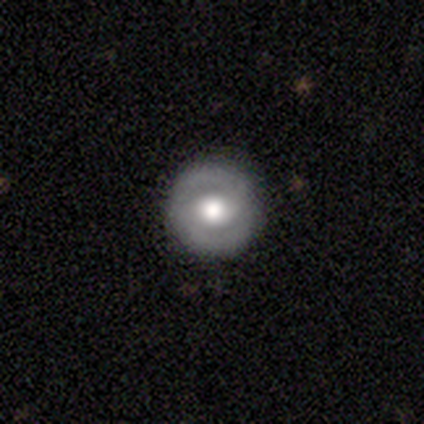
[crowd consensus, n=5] A featured or disk galaxy (80%) with a weak bar (67%), 2 (100%) tight (100%) spiral arms (67%) and a moderate central bulge (100%).

Vote fractions:
- Smooth or featured? featured or disk: 80% / smooth: 20% / star or artifact: 0%
- Edge-on disk? no: 75% / yes: 25%
- Bar? weak: 67% / no: 33% / strong: 0%
- Spiral arms? yes: 67% / no: 33%
- Spiral winding? tight: 100% / medium: 0% / loose: 0%
- Spiral arm count? 2: 100% / 1: 0% / 3: 0% / 4: 0% / more than 4: 0% / can't tell: 0%
- Bulge size? moderate: 100% / dominant: 0% / large: 0% / small: 0% / none: 0%
- Merging? none: 80% / minor disturbance: 20% / major disturbance: 0% / merger: 0%